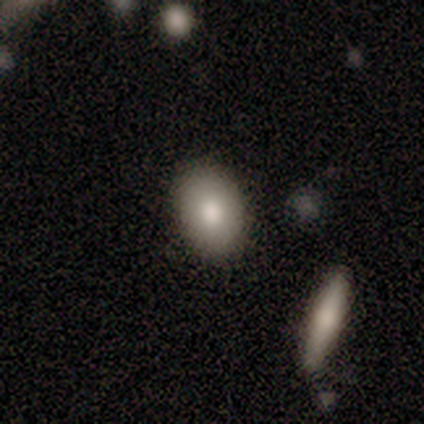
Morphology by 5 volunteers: Smooth or featured? 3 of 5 (60%) said smooth. How rounded? 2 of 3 (67%) said in between. Merging? 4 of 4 (100%) said none.